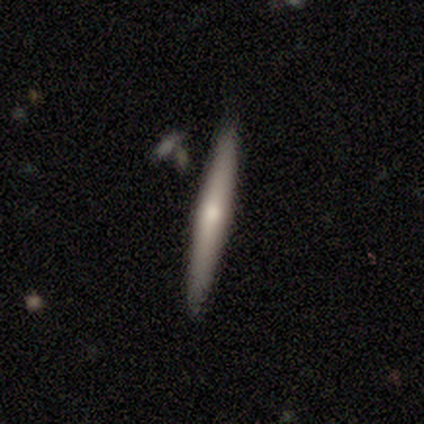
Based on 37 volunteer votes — Smooth or featured?
  - smooth: 49% * (tied)
  - featured or disk: 49% * (tied)
  - star or artifact: 3%
How rounded?
  - cigar-shaped: 89% *
  - in between: 11%
  - round: 0%
Merging?
  - none: 86% *
  - minor disturbance: 11%
  - merger: 3%
  - major disturbance: 0%